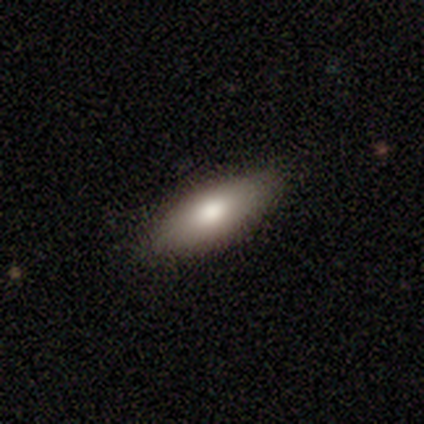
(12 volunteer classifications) Smooth or featured?
  - smooth: 58% *
  - featured or disk: 42%
  - star or artifact: 0%
How rounded?
  - in between: 100% *
  - round: 0%
  - cigar-shaped: 0%
Merging?
  - none: 83% *
  - minor disturbance: 17%
  - major disturbance: 0%
  - merger: 0%